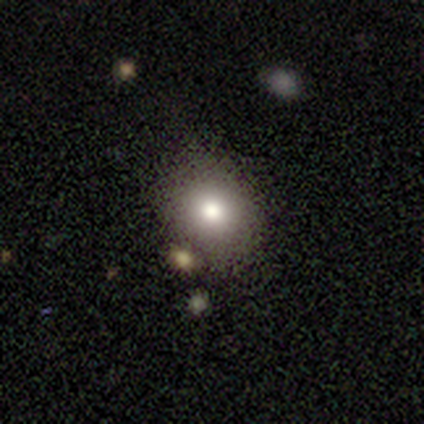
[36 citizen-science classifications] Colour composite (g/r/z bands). It shows a smooth galaxy with no disk features (67%) that is round (79%). Merging: none (74%).